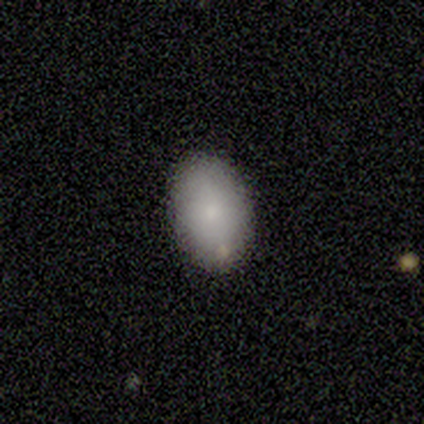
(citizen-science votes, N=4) Volunteers were most divided on "how rounded": in between: 75%, round: 25%, cigar-shaped: 0%. More confident: smooth or featured — smooth (100%); merging — none (100%).